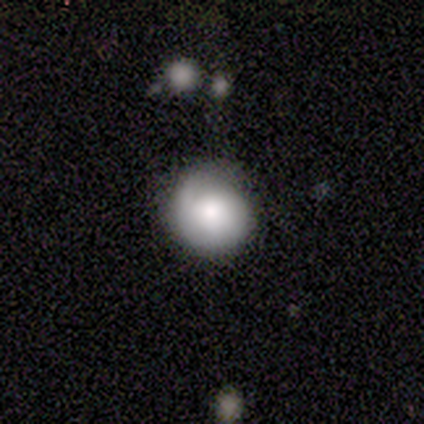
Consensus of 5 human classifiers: Smooth or featured? 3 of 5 (60%) said smooth. How rounded? 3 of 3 (100%) said round. Merging? 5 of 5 (100%) said none.